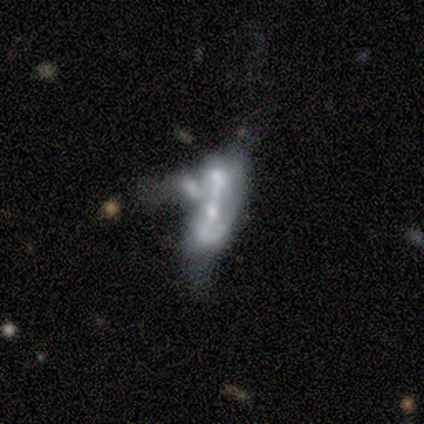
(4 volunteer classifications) A featured or disk galaxy (75%) with no bar (100%), no spiral arms (100%) and a large central bulge (50%, tied with small).

Vote fractions:
- Smooth or featured? featured or disk: 75% / smooth: 25% / star or artifact: 0%
- Edge-on disk? no: 67% / yes: 33%
- Bar? no: 100% / strong: 0% / weak: 0%
- Spiral arms? no: 100% / yes: 0%
- Bulge size? large: 50% (tied) / small: 50% (tied) / dominant: 0% / moderate: 0% / none: 0%
- Merging? merger: 100% / none: 0% / minor disturbance: 0% / major disturbance: 0%